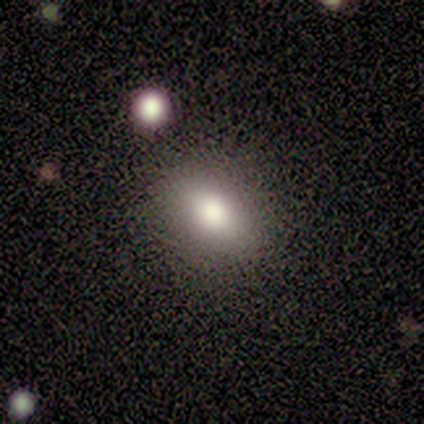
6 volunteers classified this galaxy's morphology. A smooth galaxy with no disk features (83%) that is in between round and cigar-shaped (60%).

Vote fractions:
- Smooth or featured? smooth: 83% / featured or disk: 17% / star or artifact: 0%
- How rounded? in between: 60% / round: 40% / cigar-shaped: 0%
- Merging? none: 67% / minor disturbance: 17% / major disturbance: 17% / merger: 0%